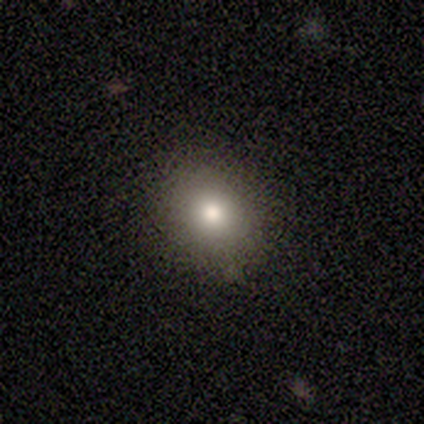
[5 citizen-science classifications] smooth_or_featured: smooth (p=0.80) [alt: star or artifact p=0.20]
how_rounded: round (p=0.75) [alt: in between p=0.25]
merging: none (p=1.00)